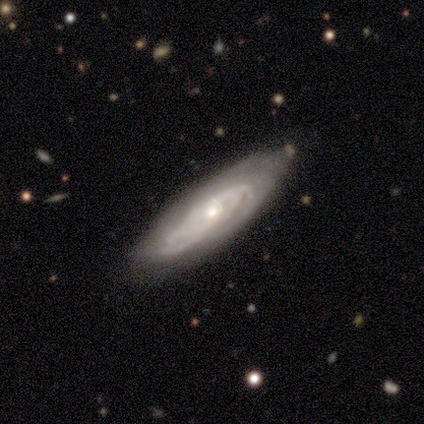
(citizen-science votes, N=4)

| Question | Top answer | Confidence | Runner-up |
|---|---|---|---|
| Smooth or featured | featured or disk | 100% | — |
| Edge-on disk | no | 75% | yes (25%) |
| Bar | no | 67% | weak (33%) |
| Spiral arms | yes | 67% | no (33%) |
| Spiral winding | medium | 100% | — |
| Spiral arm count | can't tell | 100% | — |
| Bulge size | small | 67% | moderate (33%) |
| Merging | none | 50% | tied: minor disturbance (50%) |